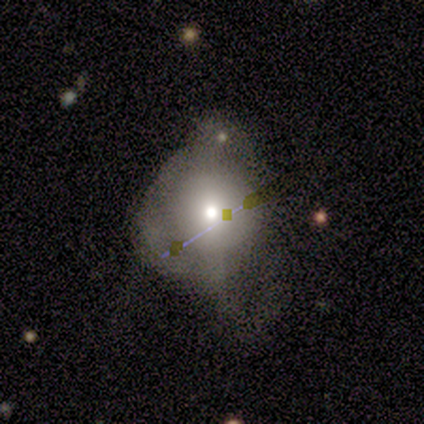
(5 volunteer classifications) This appears to be a smooth galaxy with no disk features (80%) that is round (100%). Merging: major disturbance (80%).